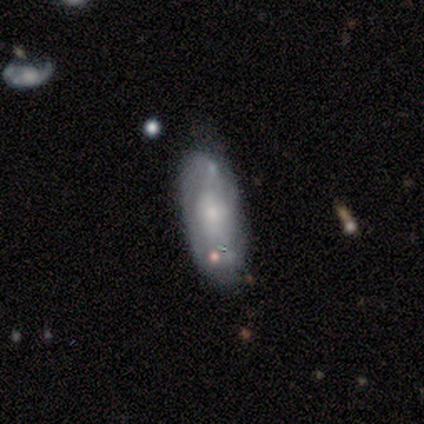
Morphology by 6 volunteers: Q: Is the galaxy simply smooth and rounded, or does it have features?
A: featured or disk — 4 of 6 (67%).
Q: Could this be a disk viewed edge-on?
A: no — 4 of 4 (100%).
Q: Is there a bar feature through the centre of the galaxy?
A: no — 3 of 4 (75%).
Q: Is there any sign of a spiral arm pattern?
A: yes — 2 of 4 (50%, tied with no).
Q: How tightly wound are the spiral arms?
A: tight — 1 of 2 (50%, tied with loose).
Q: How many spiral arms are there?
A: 1 — 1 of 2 (50%, tied with can't tell).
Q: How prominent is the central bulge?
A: small — 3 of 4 (75%).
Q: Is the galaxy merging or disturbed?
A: none — 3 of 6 (50%).